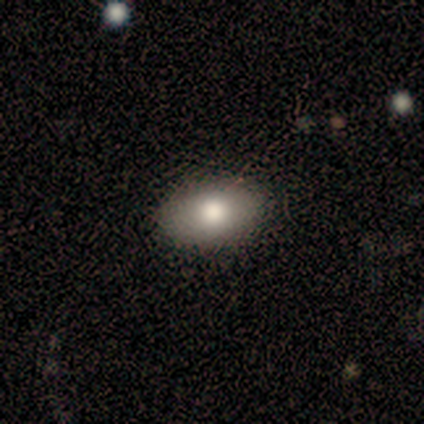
smooth_or_featured: smooth (p=1.00)
how_rounded: in between (p=0.88) [alt: round p=0.12]
merging: none (p=1.00)